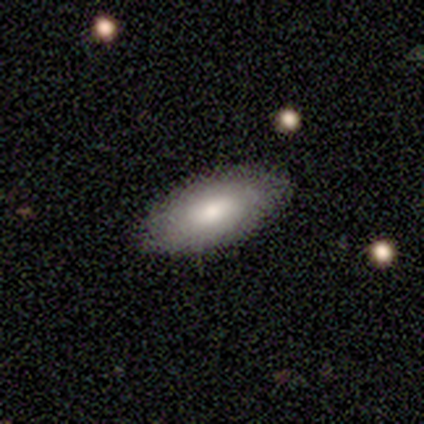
Q: Smooth or featured?
A: smooth (75%); runner-up: featured or disk (25%)
Q: How rounded?
A: in between (67%); runner-up: cigar-shaped (33%)
Q: Merging?
A: none (75%); runner-up: minor disturbance (25%)